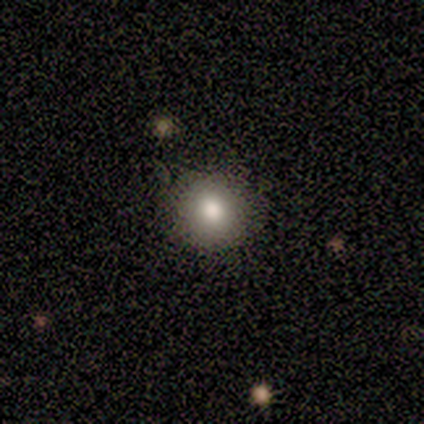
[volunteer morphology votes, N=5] This appears to be a smooth galaxy with no disk features (80%) that is round (100%). Merging: none (100%).